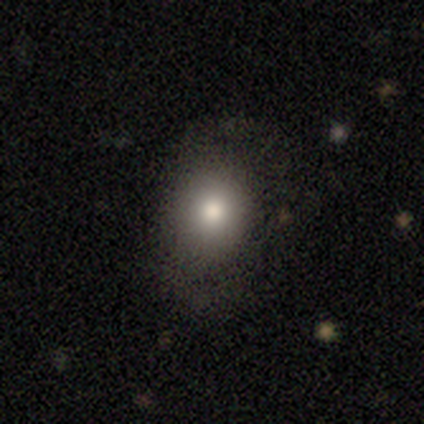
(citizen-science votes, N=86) This is likely a smooth galaxy (76%). How rounded: likely round (62%). Merging: likely none (70%).